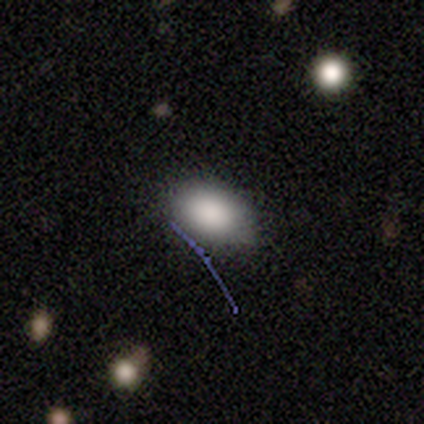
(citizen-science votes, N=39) This appears to be a smooth galaxy with no disk features (87%) that is in between round and cigar-shaped (85%). Merging: none (74%).